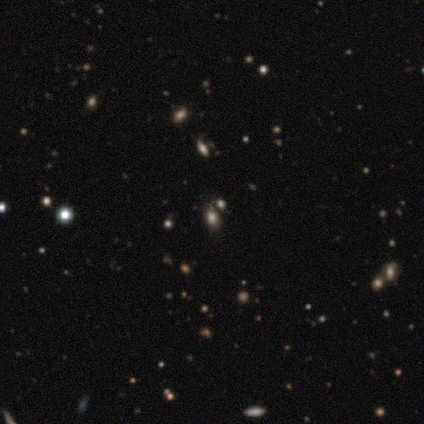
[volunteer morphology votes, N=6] Smooth or featured: star or artifact — 83% (smooth — 17%)